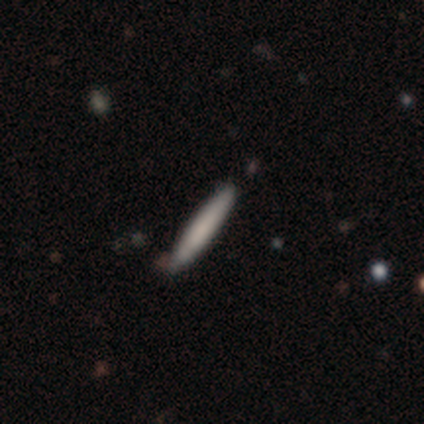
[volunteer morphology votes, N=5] smooth 60%, featured or disk 20%, star or artifact 20%. Down the decision tree: how rounded — cigar-shaped (100%); merging — none (75%).